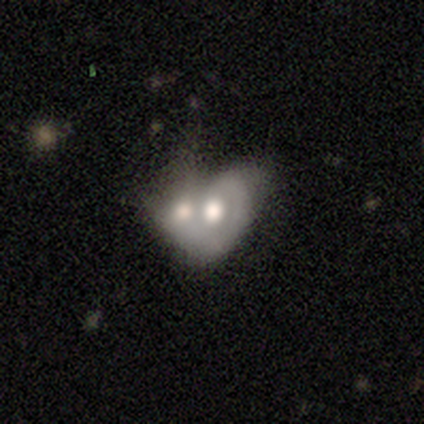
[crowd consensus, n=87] Morphology: type=featured or disk (51%); edge-on=no (91%); bar=no (95%); spiral arms=no (80%); bulge=moderate (55%); merging=merger (79%).